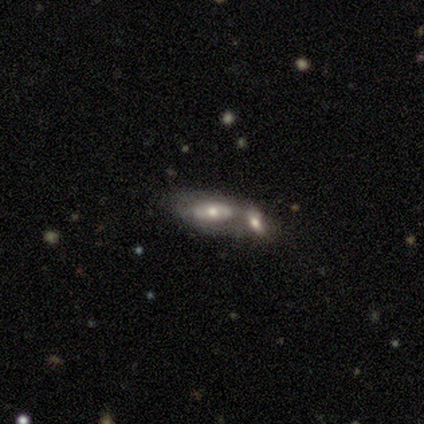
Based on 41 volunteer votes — Morphology: type=featured or disk (63%); edge-on=no (88%); bar=no (91%); spiral arms=no (74%); bulge=moderate (61%); merging=merger (74%).